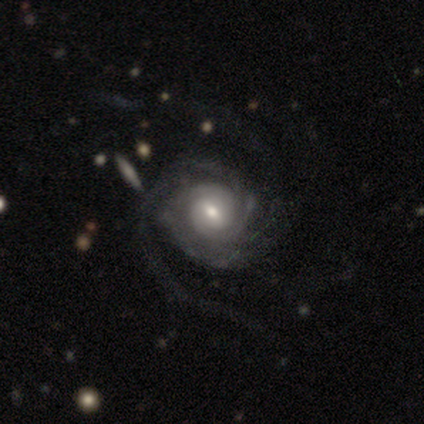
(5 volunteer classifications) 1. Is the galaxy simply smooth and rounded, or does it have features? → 80% featured or disk, 20% smooth, 0% star or artifact.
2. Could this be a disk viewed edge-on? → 100% no, 0% yes.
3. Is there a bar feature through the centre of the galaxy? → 50% weak, 25% strong, 25% no.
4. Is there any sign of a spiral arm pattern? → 100% yes, 0% no.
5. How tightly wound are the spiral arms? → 75% tight, 25% medium, 0% loose.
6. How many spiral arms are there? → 100% 2, 0% 1, 0% 3, 0% 4, 0% more than 4, 0% can't tell.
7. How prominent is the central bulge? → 75% moderate, 25% small, 0% dominant, 0% large, 0% none.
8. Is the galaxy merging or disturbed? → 60% none, 40% minor disturbance, 0% major disturbance, 0% merger.